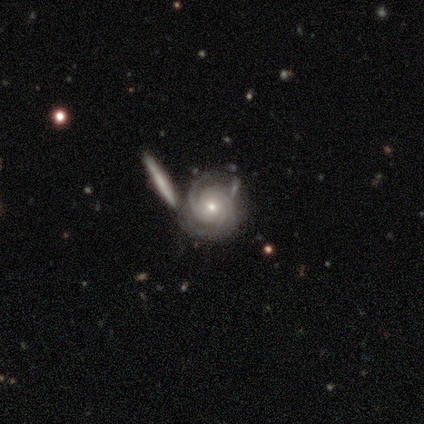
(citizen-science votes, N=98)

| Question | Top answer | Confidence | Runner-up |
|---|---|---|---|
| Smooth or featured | featured or disk | 93% | star or artifact (5%) |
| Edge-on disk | no | 99% | yes (1%) |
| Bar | no | 86% | weak (13%) |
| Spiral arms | yes | 99% | no (1%) |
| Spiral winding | tight | 79% | medium (19%) |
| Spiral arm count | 3 | 33% | can't tell (25%) |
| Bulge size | moderate | 50% | small (46%) |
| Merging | none | 53% | minor disturbance (26%) |